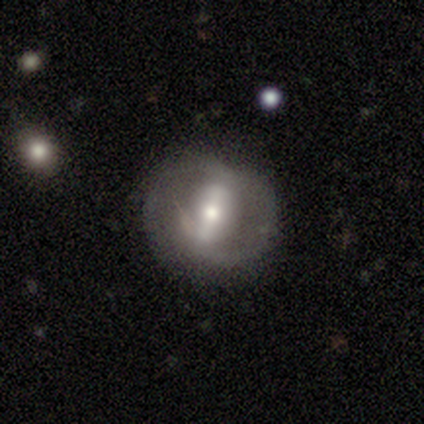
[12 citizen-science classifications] featured or disk 75%, smooth 25%, star or artifact 0%. Down the decision tree: edge-on disk — no (100%); bar — strong (100%); spiral arms — no (56%); bulge size — moderate (67%); merging — none (75%).